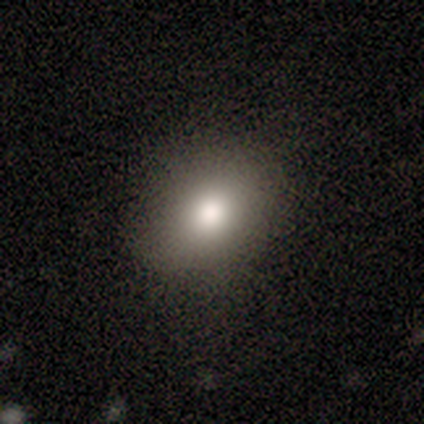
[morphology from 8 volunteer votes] Smooth or featured? smooth (62%)
How rounded? in between (80%)
Merging? none (83%)